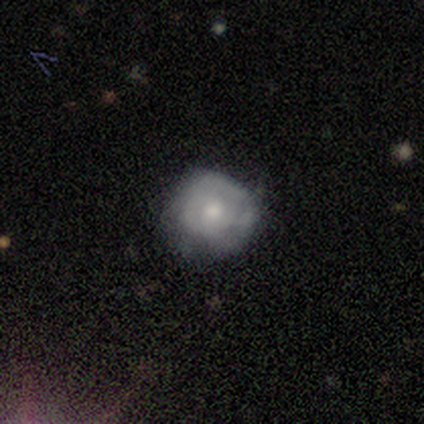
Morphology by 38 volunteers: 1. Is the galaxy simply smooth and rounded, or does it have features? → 53% smooth, 47% featured or disk, 0% star or artifact.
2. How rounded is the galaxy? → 95% round, 5% in between, 0% cigar-shaped.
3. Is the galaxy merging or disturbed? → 53% none, 34% minor disturbance, 13% major disturbance, 0% merger.